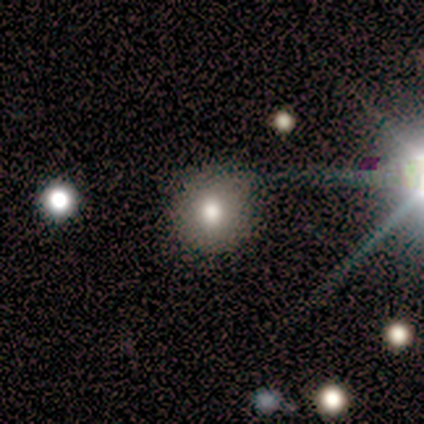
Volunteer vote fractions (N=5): Smooth or featured? smooth (60%)
How rounded? round (100%)
Merging? none (75%)